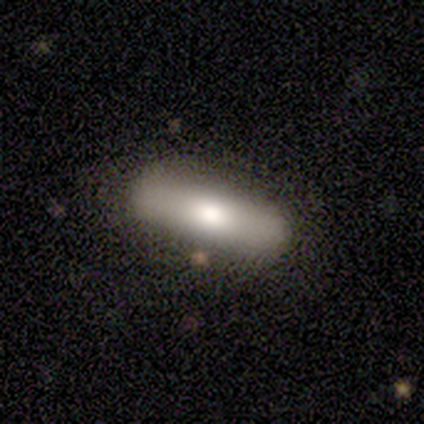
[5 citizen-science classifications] Smooth or featured?
  - smooth: 80% *
  - featured or disk: 20%
  - star or artifact: 0%
How rounded?
  - cigar-shaped: 100% *
  - round: 0%
  - in between: 0%
Merging?
  - none: 100% *
  - minor disturbance: 0%
  - major disturbance: 0%
  - merger: 0%